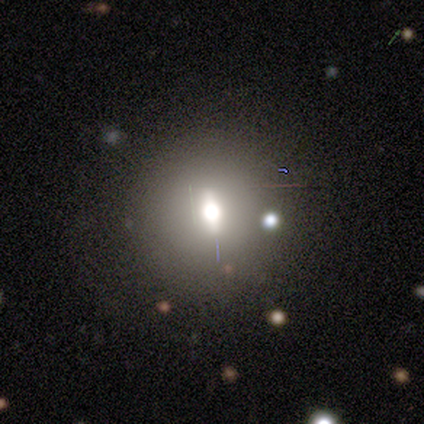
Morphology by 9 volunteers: smooth_or_featured: smooth (p=0.56) [alt: featured or disk p=0.33]
how_rounded: round (p=0.60) [alt: in between p=0.40]
merging: none (p=0.75) [alt: minor disturbance p=0.12]